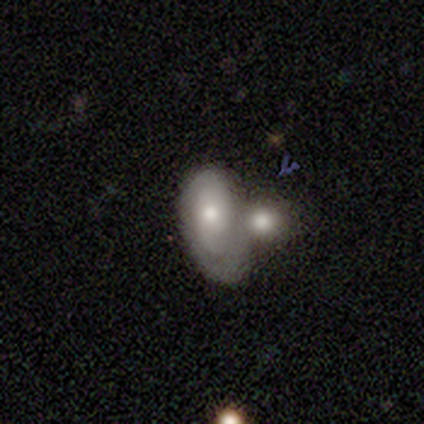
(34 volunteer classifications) This is likely a smooth galaxy (65%). How rounded: clearly in between (95%). Merging: possibly merger (52%).